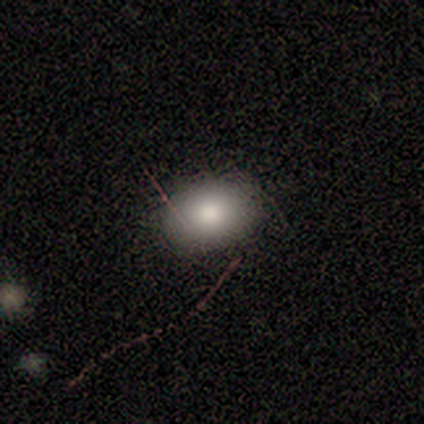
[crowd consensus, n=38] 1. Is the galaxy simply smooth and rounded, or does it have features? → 79% smooth, 13% star or artifact, 8% featured or disk.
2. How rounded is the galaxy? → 70% in between, 30% round, 0% cigar-shaped.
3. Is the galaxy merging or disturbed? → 82% none, 18% minor disturbance, 0% major disturbance, 0% merger.